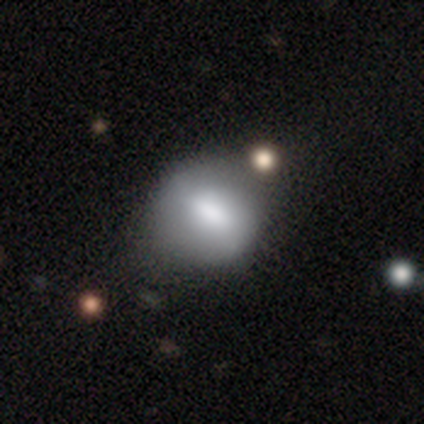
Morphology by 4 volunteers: This appears to be a smooth galaxy with no disk features (50%, tied with featured or disk) that is round (100%). Merging: none (100%).